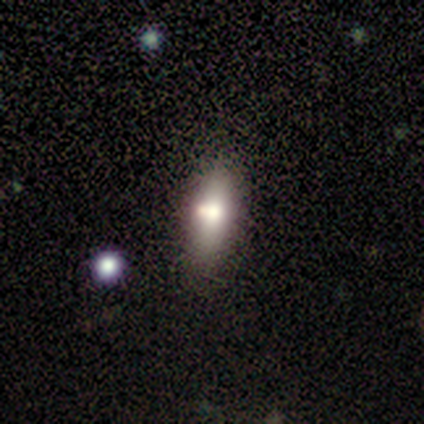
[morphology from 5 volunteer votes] Smooth or featured: smooth — 60% (featured or disk — 40%)
How rounded: in between — 67% (cigar-shaped — 33%)
Merging: none — 60% (minor disturbance — 20%)